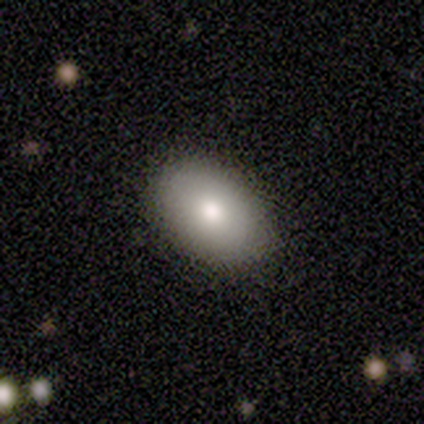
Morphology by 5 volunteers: Overall: smooth (100%). How rounded: in between (80%). Merging: none (40%, tied with major disturbance).